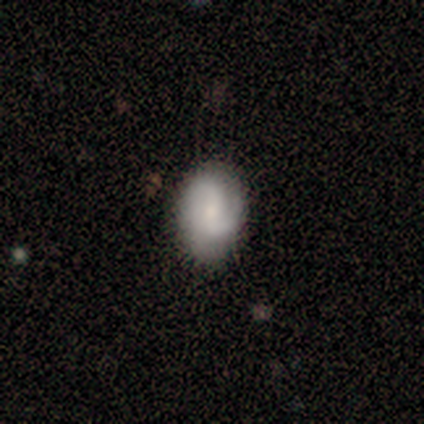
Volunteers were most divided on "how rounded": in between: 75%, round: 25%, cigar-shaped: 0%. More confident: merging — none (100%); smooth or featured — smooth (80%).